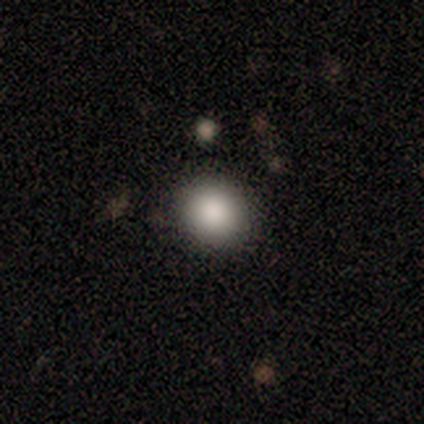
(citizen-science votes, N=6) Volunteers were most divided on "merging": none: 80%, minor disturbance: 20%, major disturbance: 0%, merger: 0%. More confident: how rounded — round (100%); smooth or featured — smooth (83%).